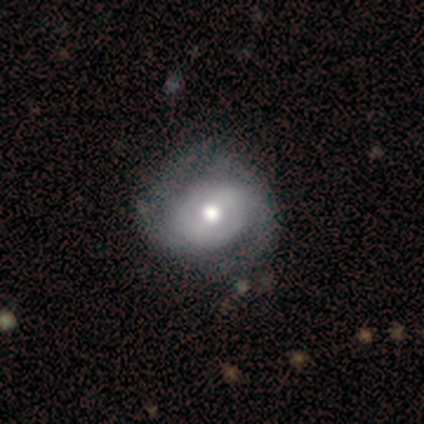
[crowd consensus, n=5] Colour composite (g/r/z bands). It shows a featured or disk galaxy (60%) with a weak bar (67%), 2 (33%, tied with 4 and can't tell) tight (67%) spiral arms (100%) and a moderate central bulge (100%). Merging: none (50%, tied with minor disturbance).